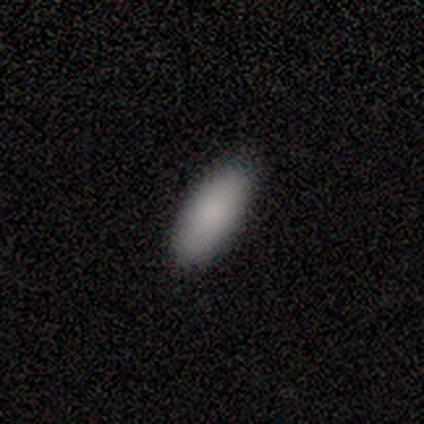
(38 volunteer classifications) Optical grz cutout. It shows a smooth galaxy with no disk features (84%) that is in between round and cigar-shaped (75%). Merging: none (94%).